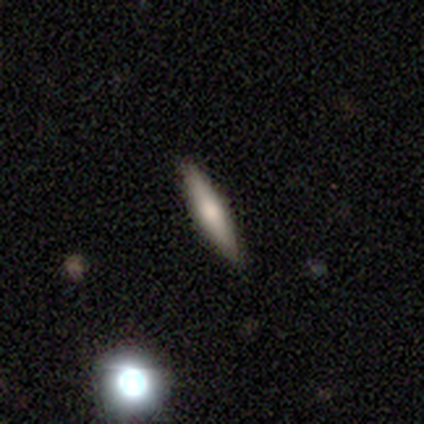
featured or disk 60%, smooth 40%, star or artifact 0%. Down the decision tree: edge-on disk — yes (100%); edge-on bulge — none (67%); merging — none (100%).